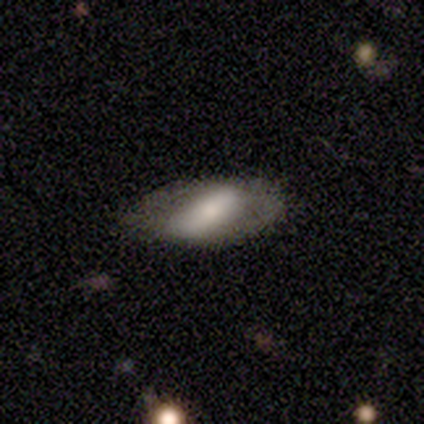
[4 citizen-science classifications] Q: Smooth or featured?
A: smooth (50%); tied with: featured or disk (50%)
Q: How rounded?
A: in between (100%)
Q: Merging?
A: minor disturbance (50%); runner-up: none (25%)